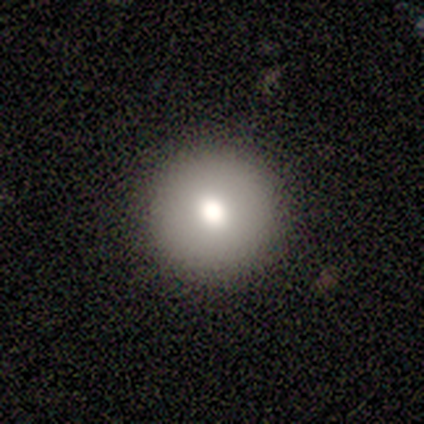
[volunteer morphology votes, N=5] smooth 100%, featured or disk 0%, star or artifact 0%. Down the decision tree: how rounded — round (100%); merging — none (100%).